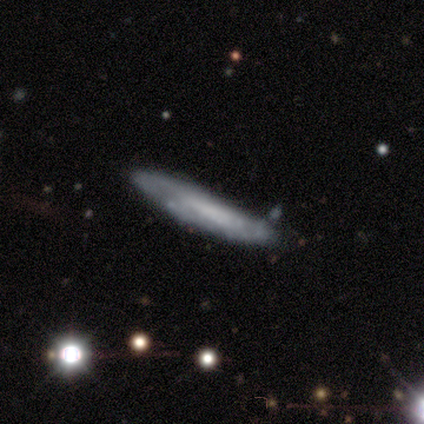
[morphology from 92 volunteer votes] This is possibly a featured or disk galaxy (51%). It is likely viewed edge-on (64%). Edge-on bulge: likely none (77%). Merging: likely none (78%).